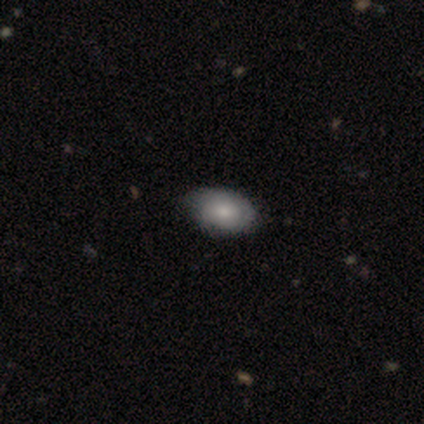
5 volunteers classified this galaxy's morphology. Smooth or featured?
  - smooth: 80% *
  - featured or disk: 20%
  - star or artifact: 0%
How rounded?
  - in between: 100% *
  - round: 0%
  - cigar-shaped: 0%
Merging?
  - none: 80% *
  - minor disturbance: 20%
  - major disturbance: 0%
  - merger: 0%